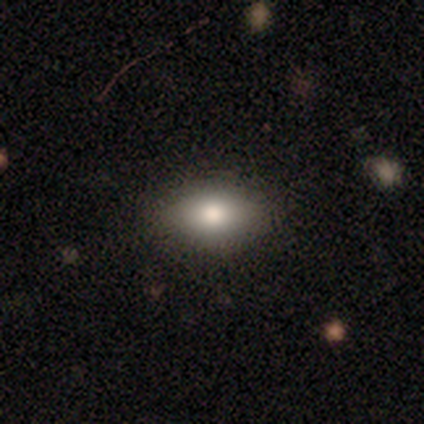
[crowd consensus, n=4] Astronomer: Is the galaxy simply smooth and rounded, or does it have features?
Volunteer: smooth — 75%.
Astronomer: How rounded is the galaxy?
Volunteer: in between — 100%.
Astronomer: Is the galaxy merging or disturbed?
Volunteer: none — 100%.